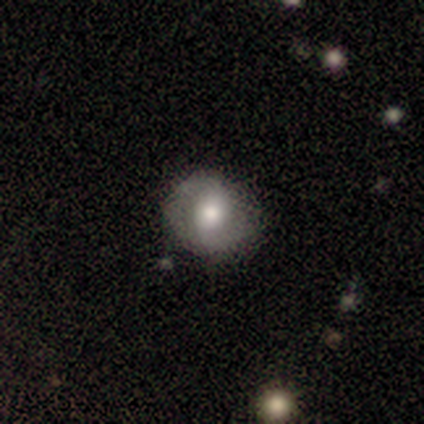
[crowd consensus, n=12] Smooth or featured? smooth (58%)
How rounded? round (86%)
Merging? none (92%)